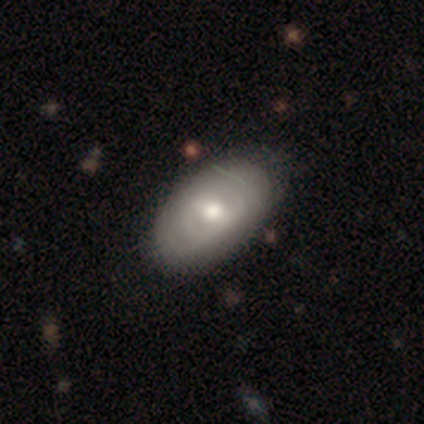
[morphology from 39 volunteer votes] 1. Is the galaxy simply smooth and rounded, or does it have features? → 54% featured or disk, 38% smooth, 8% star or artifact.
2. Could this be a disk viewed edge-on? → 90% no, 10% yes.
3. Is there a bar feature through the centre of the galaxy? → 58% weak, 26% no, 16% strong.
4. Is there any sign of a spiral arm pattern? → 68% no, 32% yes.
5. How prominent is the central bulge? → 63% moderate, 21% small, 11% dominant, 5% large, 0% none.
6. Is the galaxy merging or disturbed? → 86% none, 8% minor disturbance, 6% major disturbance, 0% merger.